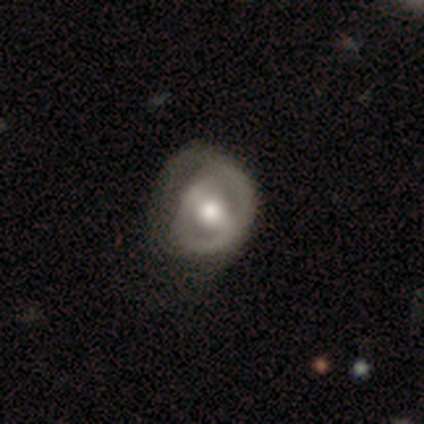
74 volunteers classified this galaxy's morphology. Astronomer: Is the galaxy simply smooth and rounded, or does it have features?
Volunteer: featured or disk — 70%.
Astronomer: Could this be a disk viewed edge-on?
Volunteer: no — 98%.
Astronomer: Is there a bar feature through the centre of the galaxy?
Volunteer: weak — 49% (runner-up: strong, 41%).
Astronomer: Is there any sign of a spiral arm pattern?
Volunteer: yes — 51% (runner-up: no, 49%).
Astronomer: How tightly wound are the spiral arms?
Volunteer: tight — 38% (runner-up: medium, 35%).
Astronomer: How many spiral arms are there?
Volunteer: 2 — 46% (runner-up: can't tell, 31%).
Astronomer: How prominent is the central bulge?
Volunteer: moderate — 59%.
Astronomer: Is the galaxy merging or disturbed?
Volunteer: major disturbance — 21% (runner-up: minor disturbance, 20%).